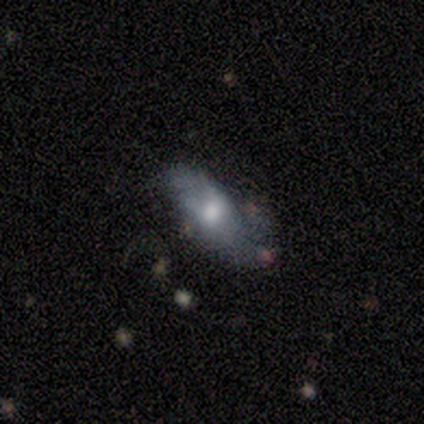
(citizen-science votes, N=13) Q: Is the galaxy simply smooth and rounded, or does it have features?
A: smooth — 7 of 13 (54%).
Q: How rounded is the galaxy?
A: in between — 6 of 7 (86%).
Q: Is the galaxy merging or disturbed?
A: none — 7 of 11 (64%).